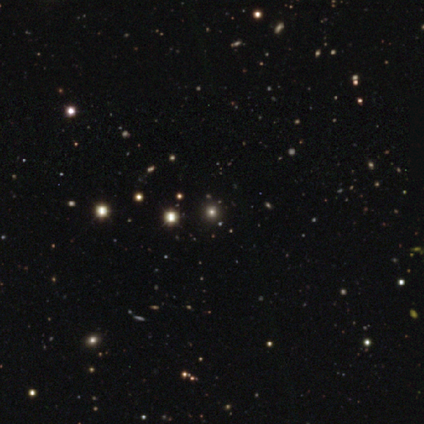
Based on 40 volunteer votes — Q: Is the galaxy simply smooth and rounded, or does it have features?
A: star or artifact — 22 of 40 (55%).